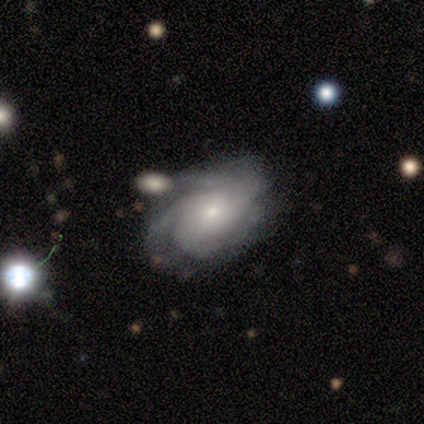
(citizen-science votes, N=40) featured or disk 75%, smooth 18%, star or artifact 8%. Down the decision tree: edge-on disk — no (97%); bar — no (72%); spiral arms — yes (97%); spiral arm count — 4 (32%, tied with can't tell); spiral winding — tight (79%); bulge size — small (76%); merging — none (59%).